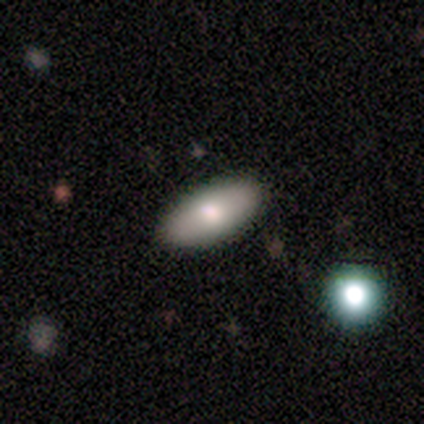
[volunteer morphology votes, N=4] Smooth or featured: smooth — 50% (tied with featured or disk — 50%)
How rounded: round — 50% (tied with in between — 50%)
Merging: none — 100%